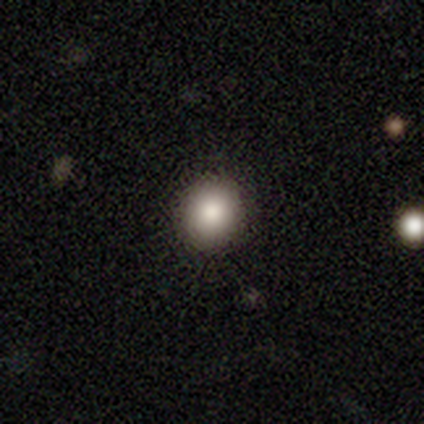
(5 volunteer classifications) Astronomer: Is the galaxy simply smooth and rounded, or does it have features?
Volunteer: smooth — 80%.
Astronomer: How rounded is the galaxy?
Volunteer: round — 50%, tied with in between at 50%.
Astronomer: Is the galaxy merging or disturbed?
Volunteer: none — 80%.